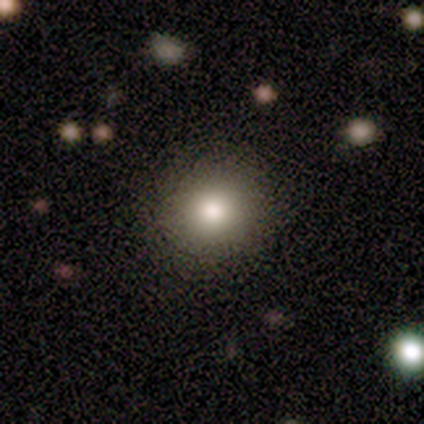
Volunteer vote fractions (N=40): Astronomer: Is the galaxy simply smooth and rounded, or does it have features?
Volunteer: smooth — 60%.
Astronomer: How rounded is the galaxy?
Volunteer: round — 83%.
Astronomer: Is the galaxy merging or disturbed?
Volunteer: none — 90%.